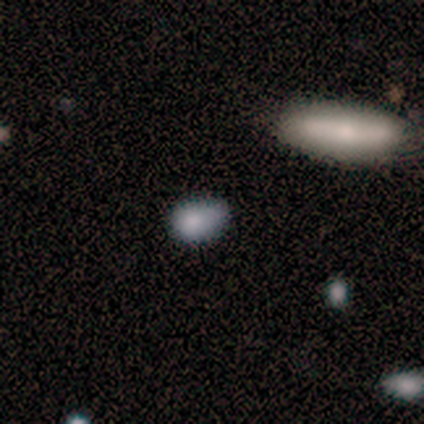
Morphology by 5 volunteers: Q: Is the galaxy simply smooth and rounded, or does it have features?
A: smooth — 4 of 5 (80%).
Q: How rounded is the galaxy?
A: in between — 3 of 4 (75%).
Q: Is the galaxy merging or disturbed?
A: minor disturbance — 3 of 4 (75%).